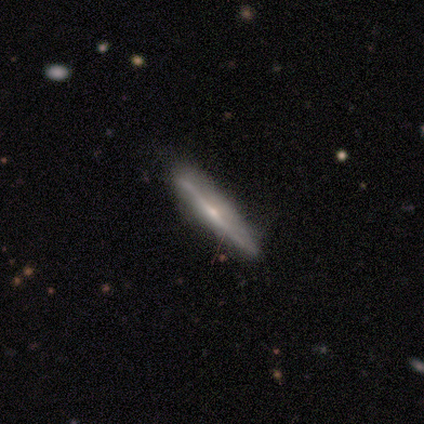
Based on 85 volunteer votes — Smooth or featured? featured or disk (74%)
Edge-on disk? yes (92%)
Edge-on bulge? rounded (72%)
Merging? none (81%)